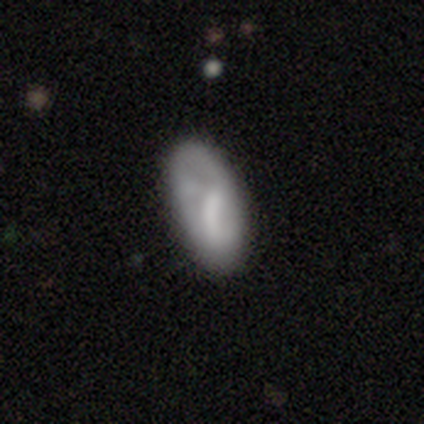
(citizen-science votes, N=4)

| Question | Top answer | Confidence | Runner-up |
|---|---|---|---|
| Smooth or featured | smooth | 100% | — |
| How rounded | in between | 100% | — |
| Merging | none | 50% | minor disturbance (25%) |